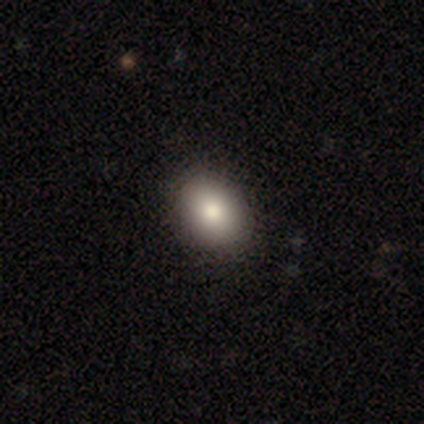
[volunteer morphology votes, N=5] smooth 100%, featured or disk 0%, star or artifact 0%. Down the decision tree: how rounded — in between (60%); merging — none (100%).